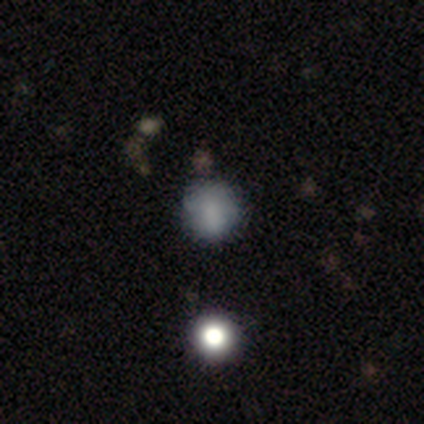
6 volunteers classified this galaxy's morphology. smooth-or-featured: smooth: 100% | featured or disk: 0% | star or artifact: 0%
  how-rounded: round: 100% | in between: 0% | cigar-shaped: 0%
  merging: none: 67% | minor disturbance: 33% | major disturbance: 0% | merger: 0%